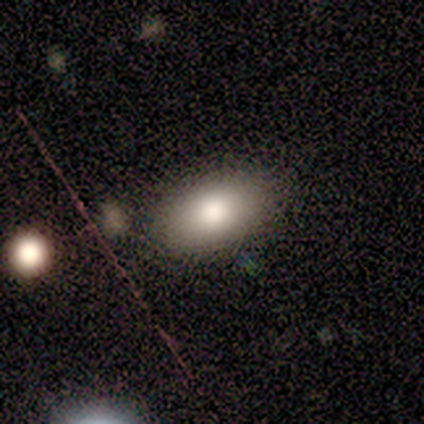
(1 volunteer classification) Smooth or featured? smooth (100%)
How rounded? in between (100%)
Merging? none (100%)